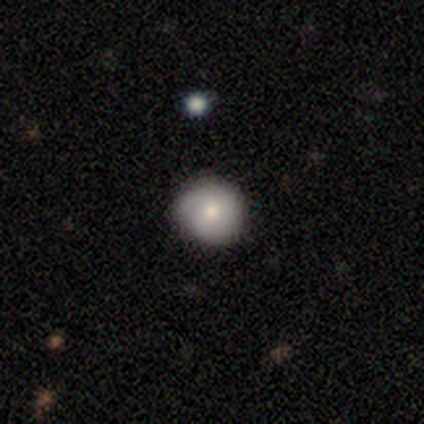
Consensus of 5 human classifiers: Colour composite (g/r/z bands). It shows a featured or disk galaxy (80%) with no bar (100%), no spiral arms (75%) and a moderate central bulge (100%). Merging: none (100%).